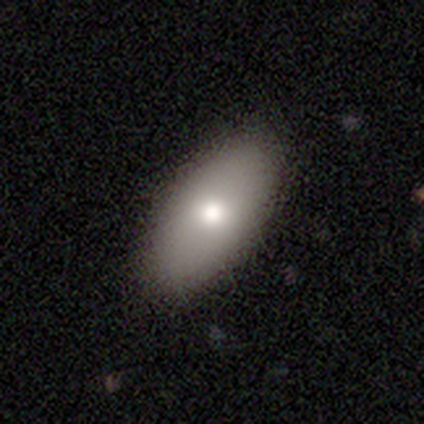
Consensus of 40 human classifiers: Overall: smooth (75%). How rounded: in between (100%). Merging: none (53%).